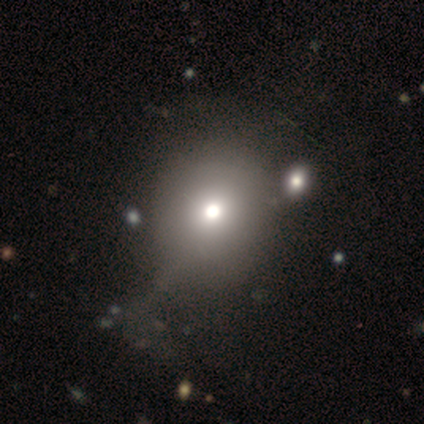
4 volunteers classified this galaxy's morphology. Smooth or featured? 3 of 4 (75%) said smooth. How rounded? 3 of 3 (100%) said round. Merging? 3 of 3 (100%) said none.